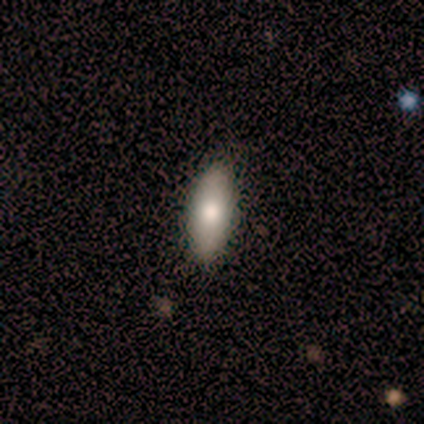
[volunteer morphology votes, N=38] A smooth galaxy with no disk features (76%) that is in between round and cigar-shaped (62%). Merging: none (89%).